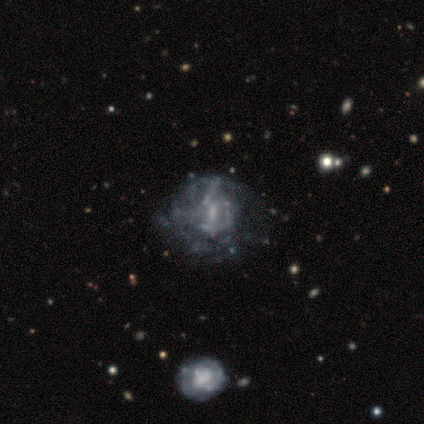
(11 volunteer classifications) A featured or disk galaxy (91%) with a weak bar (60%), tight (50%) spiral arms (60%) and no central bulge (60%). Merging: none (55%).